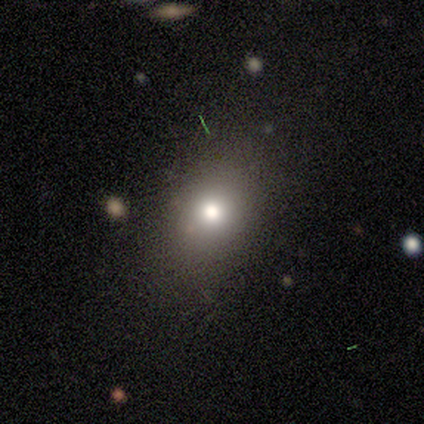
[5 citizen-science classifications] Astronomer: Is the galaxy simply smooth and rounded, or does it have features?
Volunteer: smooth — 100%.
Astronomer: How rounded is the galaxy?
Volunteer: round — 60% (runner-up: in between, 40%).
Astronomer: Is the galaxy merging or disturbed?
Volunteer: none — 100%.